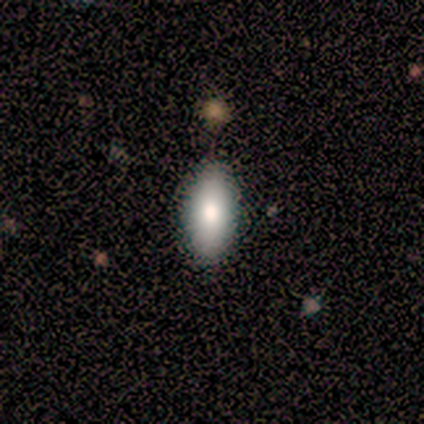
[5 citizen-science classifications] This is clearly a smooth galaxy (100%). How rounded: clearly in between (100%). Merging: clearly none (80%).